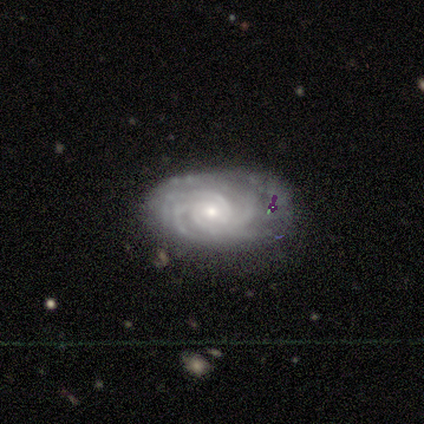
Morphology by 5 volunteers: smooth-or-featured: featured or disk: 100% | smooth: 0% | star or artifact: 0%
  disk-edge-on: no: 80% | yes: 20%
    bar: no: 75% | weak: 25% | strong: 0%
    has-spiral-arms: yes: 100% | no: 0%
      spiral-winding: tight: 100% | medium: 0% | loose: 0%
      spiral-arm-count: 3: 25% (tied) | 4: 25% (tied) | more than 4: 25% (tied) | can't tell: 25% (tied) | 1: 0% | 2: 0%
    bulge-size: moderate: 50% (tied) | small: 50% (tied) | dominant: 0% | large: 0% | none: 0%
  merging: none: 60% | minor disturbance: 40% | major disturbance: 0% | merger: 0%